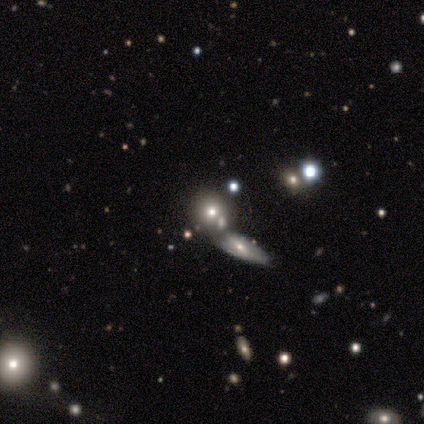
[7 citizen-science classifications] Overall: smooth (71%). How rounded: round (40%, tied with cigar-shaped). Merging: none (50%; merger 33%).